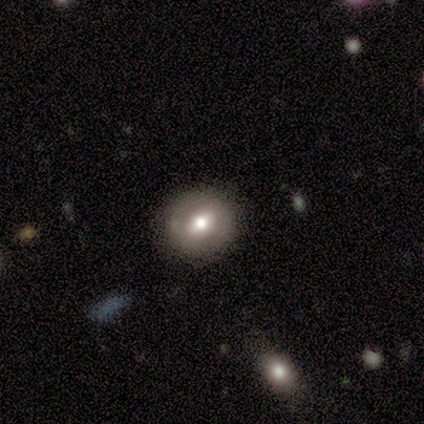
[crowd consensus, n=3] Volunteers were most divided on "smooth or featured": featured or disk: 67%, smooth: 33%, star or artifact: 0%. More confident: edge-on disk — no (100%); bar — weak (100%); spiral arms — no (100%); bulge size — moderate (100%); merging — none (67%).